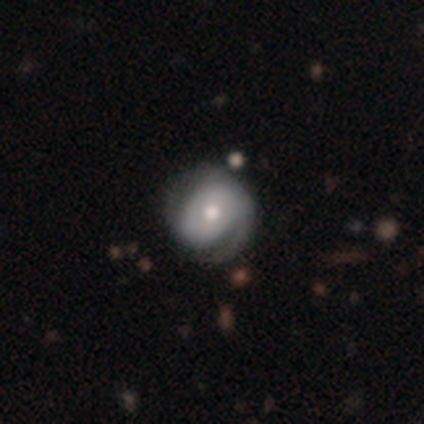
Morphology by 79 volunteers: Smooth or featured?
  - featured or disk: 68% *
  - smooth: 29%
  - star or artifact: 3%
Edge-on disk?
  - no: 100% *
  - yes: 0%
Bar?
  - no: 65% *
  - weak: 26%
  - strong: 9%
Spiral arms?
  - yes: 81% *
  - no: 19%
Spiral winding?
  - tight: 61% *
  - medium: 23%
  - loose: 16%
Spiral arm count?
  - 1: 41% *
  - 2: 39%
  - can't tell: 20%
  - 3: 0%
  - 4: 0%
  - more than 4: 0%
Bulge size?
  - moderate: 65% *
  - small: 22%
  - large: 7%
  - dominant: 6%
  - none: 0%
Merging?
  - none: 27% *
  - minor disturbance: 12%
  - major disturbance: 8%
  - merger: 6%